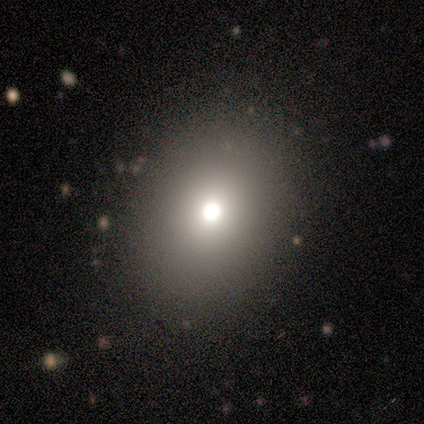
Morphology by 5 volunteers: type=smooth (60%); roundness=in between (100%); merging=none (100%).